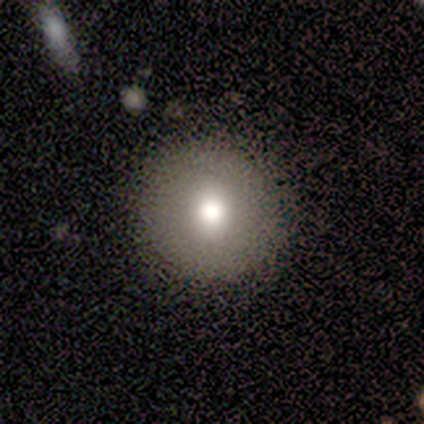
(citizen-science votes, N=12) Q: Smooth or featured?
A: smooth (75%); runner-up: featured or disk (25%)
Q: How rounded?
A: round (100%)
Q: Merging?
A: none (100%)